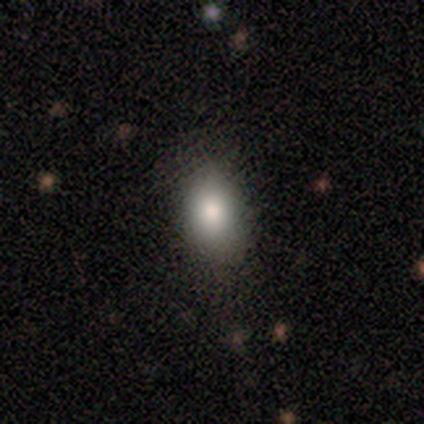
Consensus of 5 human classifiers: This is clearly a smooth galaxy (80%). How rounded: possibly in between (50%, tied with cigar-shaped). Merging: possibly none (50%, tied with minor disturbance).